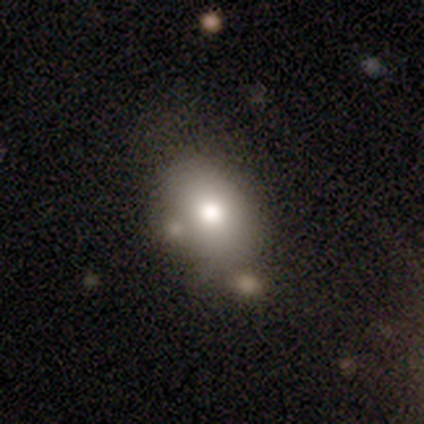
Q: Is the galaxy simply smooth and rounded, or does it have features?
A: smooth — 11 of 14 (79%).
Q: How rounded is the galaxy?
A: in between — 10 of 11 (91%).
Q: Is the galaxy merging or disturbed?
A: none — 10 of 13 (77%).